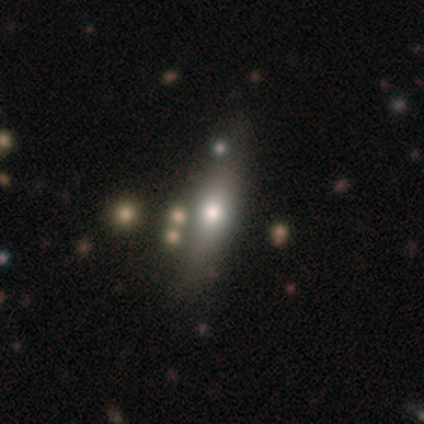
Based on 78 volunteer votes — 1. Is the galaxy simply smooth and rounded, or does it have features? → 65% smooth, 29% featured or disk, 5% star or artifact.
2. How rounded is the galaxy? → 65% cigar-shaped, 29% in between, 6% round.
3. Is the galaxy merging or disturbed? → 35% none, 12% merger, 11% minor disturbance, 1% major disturbance.